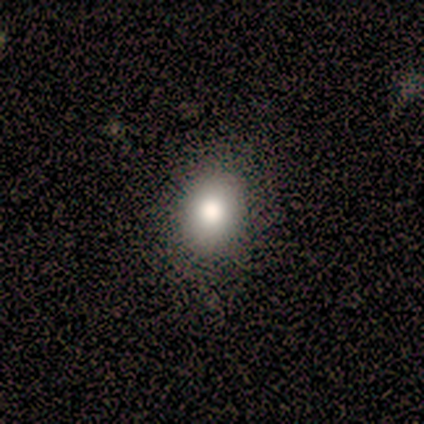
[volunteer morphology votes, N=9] This is likely a smooth galaxy (78%). How rounded: likely in between (71%). Merging: clearly none (86%).